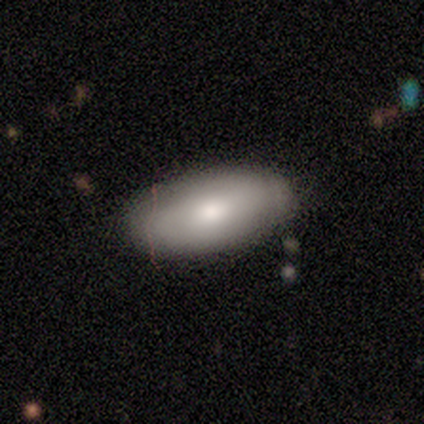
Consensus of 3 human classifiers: smooth 67%, featured or disk 33%, star or artifact 0%. Down the decision tree: how rounded — in between (100%); merging — none (100%).